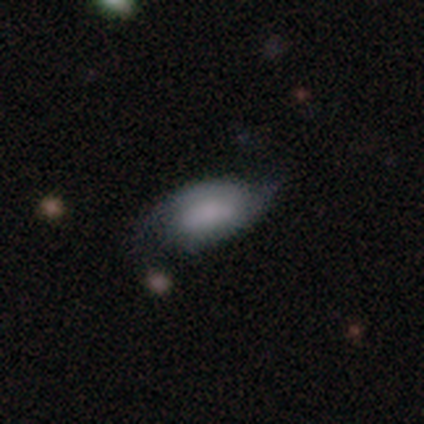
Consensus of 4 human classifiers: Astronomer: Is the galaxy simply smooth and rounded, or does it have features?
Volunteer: smooth — 50%, tied with featured or disk at 50%.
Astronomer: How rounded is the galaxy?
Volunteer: in between — 100%.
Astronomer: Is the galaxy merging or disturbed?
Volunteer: minor disturbance — 50%.